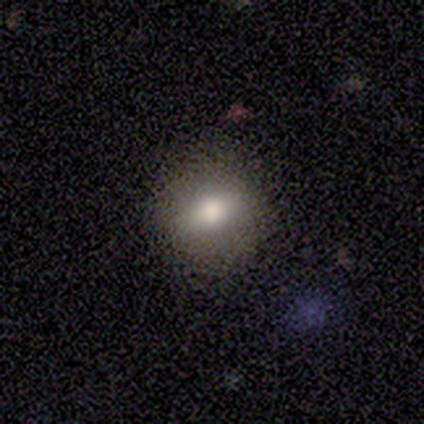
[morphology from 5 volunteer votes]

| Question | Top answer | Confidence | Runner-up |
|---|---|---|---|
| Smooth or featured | smooth | 80% | featured or disk (20%) |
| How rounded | round | 100% | — |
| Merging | none | 100% | — |